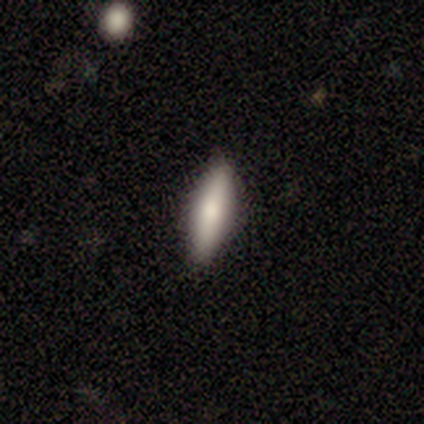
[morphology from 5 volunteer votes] This is likely a smooth galaxy (60%). How rounded: clearly cigar-shaped (100%). Merging: clearly none (100%).